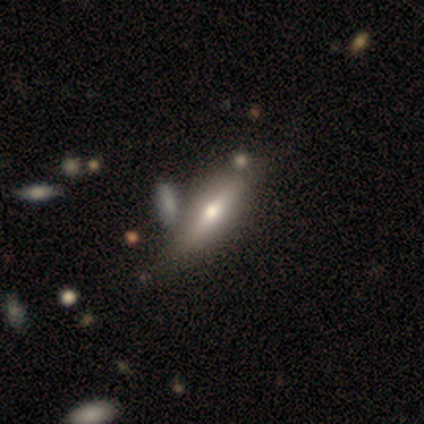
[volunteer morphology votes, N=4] Smooth or featured? smooth (75%)
How rounded? in between (67%)
Merging? minor disturbance (50%)